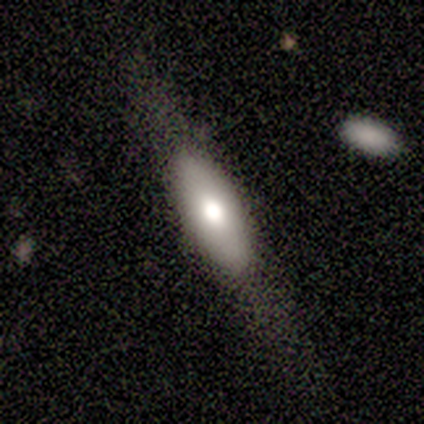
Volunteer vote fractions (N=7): Smooth or featured? 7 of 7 (100%) said smooth. How rounded? 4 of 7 (57%) said in between. Merging? 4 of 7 (57%) said none.